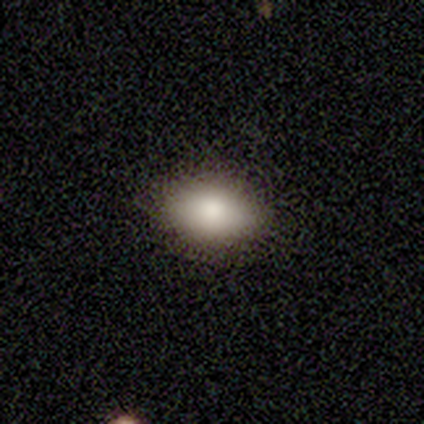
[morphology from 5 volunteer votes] A smooth galaxy with no disk features (60%) that is in between round and cigar-shaped (100%).

Vote fractions:
- Smooth or featured? smooth: 60% / featured or disk: 20% / star or artifact: 20%
- How rounded? in between: 100% / round: 0% / cigar-shaped: 0%
- Merging? none: 100% / minor disturbance: 0% / major disturbance: 0% / merger: 0%